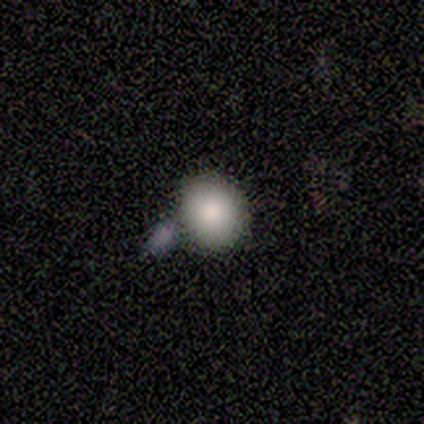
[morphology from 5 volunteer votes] A smooth galaxy with no disk features (100%) that is round (100%).

Vote fractions:
- Smooth or featured? smooth: 100% / featured or disk: 0% / star or artifact: 0%
- How rounded? round: 100% / in between: 0% / cigar-shaped: 0%
- Merging? merger: 60% / none: 40% / minor disturbance: 0% / major disturbance: 0%